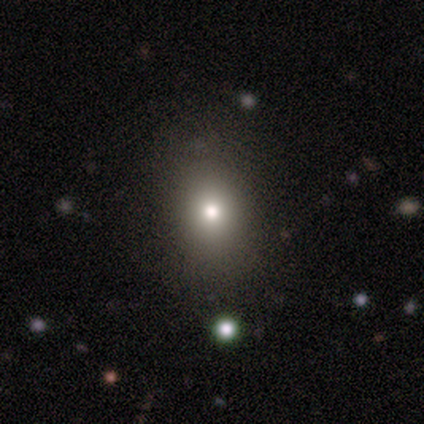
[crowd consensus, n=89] Smooth or featured?
  - smooth: 80% *
  - star or artifact: 16%
  - featured or disk: 4%
How rounded?
  - in between: 55% *
  - round: 42%
  - cigar-shaped: 3%
Merging?
  - none: 88% *
  - minor disturbance: 8%
  - major disturbance: 3%
  - merger: 1%